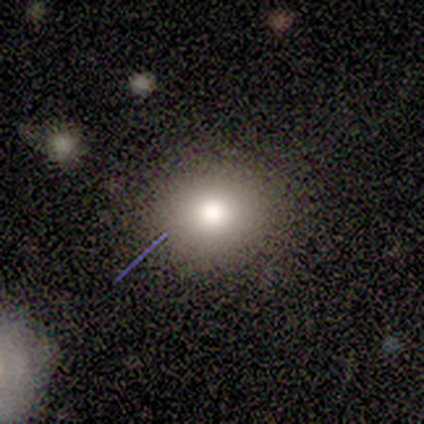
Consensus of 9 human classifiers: Smooth or featured?
  - smooth: 78% *
  - featured or disk: 11%
  - star or artifact: 11%
How rounded?
  - round: 57% *
  - in between: 43%
  - cigar-shaped: 0%
Merging?
  - none: 88% *
  - minor disturbance: 12%
  - major disturbance: 0%
  - merger: 0%